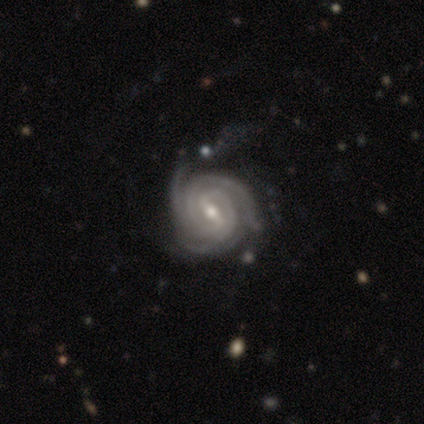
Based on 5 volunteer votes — This appears to be a featured or disk galaxy (80%) with a strong bar (75%), 3 (75%) tight (100%) spiral arms (100%) and a moderate central bulge (50%, tied with small). Merging: none (50%).